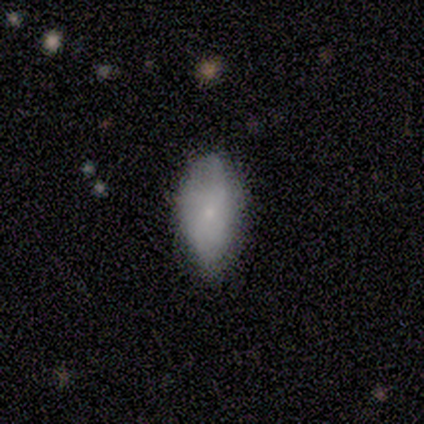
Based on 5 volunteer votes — smooth-or-featured: smooth: 80% | featured or disk: 20% | star or artifact: 0%
  how-rounded: in between: 100% | round: 0% | cigar-shaped: 0%
  merging: none: 80% | minor disturbance: 20% | major disturbance: 0% | merger: 0%